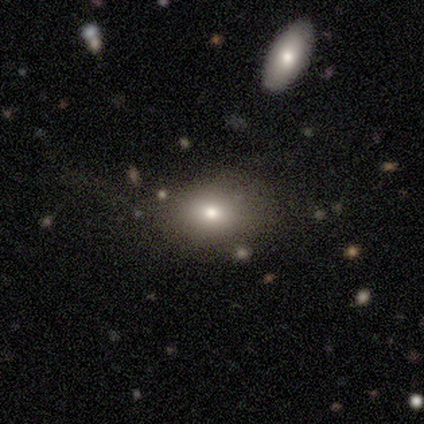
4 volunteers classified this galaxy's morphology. Smooth or featured: smooth — 50% (tied with star or artifact — 50%)
How rounded: in between — 100%
Merging: none — 100%